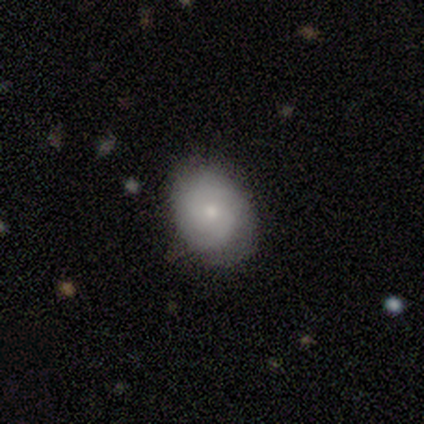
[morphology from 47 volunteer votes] Smooth or featured? 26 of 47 (55%) said featured or disk. Edge-on disk? 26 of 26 (100%) said no. Bar? 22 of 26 (85%) said no. Spiral arms? 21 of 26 (81%) said yes. Spiral winding? 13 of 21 (62%) said tight. Spiral arm count? 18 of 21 (86%) said 2. Bulge size? 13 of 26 (50%) said small. Merging? 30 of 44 (68%) said none.